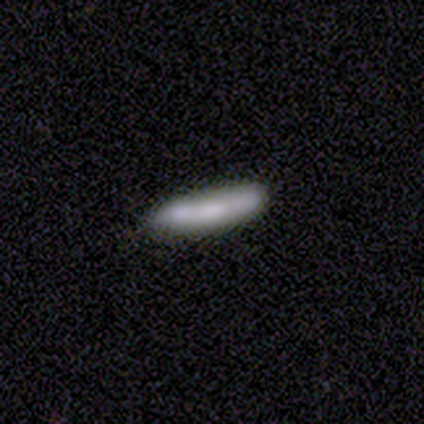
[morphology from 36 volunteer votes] A smooth galaxy with no disk features (67%) that is cigar-shaped (88%). Merging: none (82%).